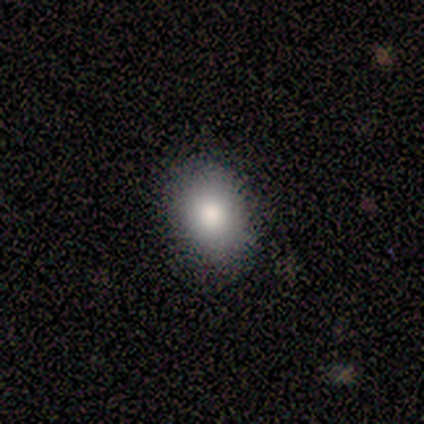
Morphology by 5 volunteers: Smooth or featured? 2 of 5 (40%, tied with star or artifact) said smooth. How rounded? 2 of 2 (100%) said in between. Merging? 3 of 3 (100%) said none.